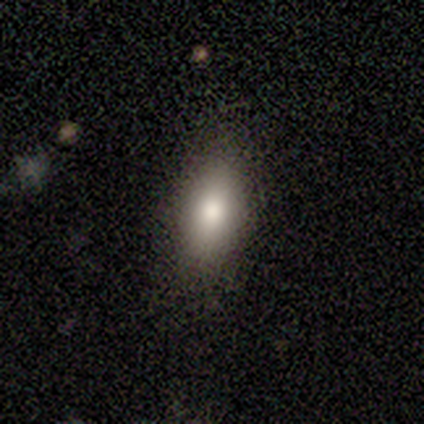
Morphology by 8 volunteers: smooth-or-featured: smooth: 75% | featured or disk: 12% | star or artifact: 12%
  how-rounded: in between: 100% | round: 0% | cigar-shaped: 0%
  merging: none: 86% | minor disturbance: 14% | major disturbance: 0% | merger: 0%